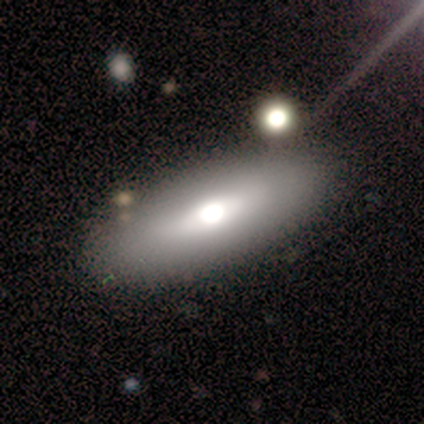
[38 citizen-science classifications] Smooth or featured? 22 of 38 (58%) said smooth. How rounded? 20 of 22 (91%) said in between. Merging? 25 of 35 (71%) said none.